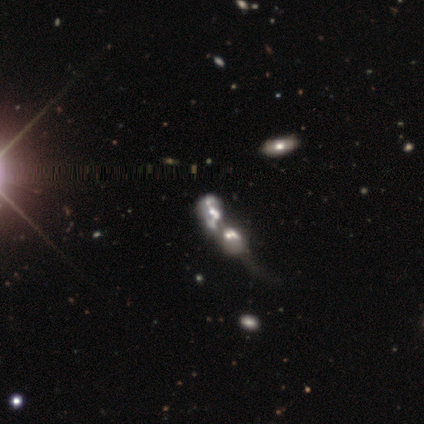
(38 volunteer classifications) Morphology: type=featured or disk (66%); edge-on=no (100%); bar=no (84%); spiral arms=no (64%); bulge=moderate (52%); merging=merger (80%).